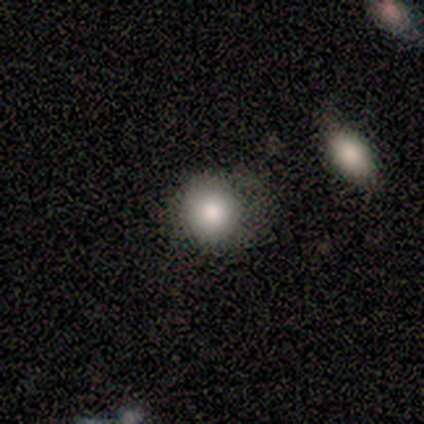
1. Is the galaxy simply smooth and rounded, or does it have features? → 80% smooth, 20% star or artifact, 0% featured or disk.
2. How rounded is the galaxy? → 75% round, 25% in between, 0% cigar-shaped.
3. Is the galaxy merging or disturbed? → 75% none, 25% major disturbance, 0% minor disturbance, 0% merger.